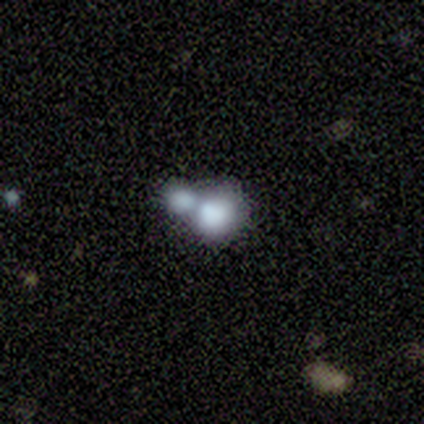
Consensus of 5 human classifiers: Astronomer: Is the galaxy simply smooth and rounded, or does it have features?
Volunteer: smooth — 60% (runner-up: featured or disk, 40%).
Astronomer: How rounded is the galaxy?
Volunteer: round — 100%.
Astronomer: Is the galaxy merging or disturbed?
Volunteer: merger — 80%.